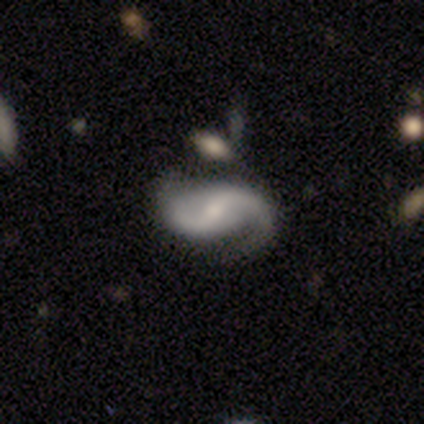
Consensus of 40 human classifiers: smooth-or-featured: featured or disk: 95% | star or artifact: 5% | smooth: 0%
  disk-edge-on: no: 97% | yes: 3%
    bar: weak: 51% | strong: 24% | no: 24%
    has-spiral-arms: yes: 97% | no: 3%
      spiral-winding: loose: 53% | medium: 47% | tight: 0%
      spiral-arm-count: 2: 97% | 1: 3% | 3: 0% | 4: 0% | more than 4: 0% | can't tell: 0%
    bulge-size: small: 54% | none: 22% | moderate: 19% | large: 5% | dominant: 0%
  merging: none: 79% | minor disturbance: 11% | major disturbance: 11% | merger: 0%